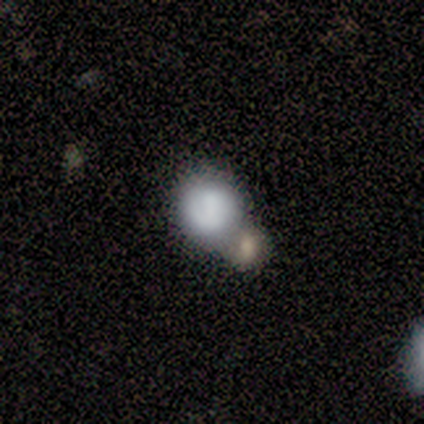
Smooth or featured?
  - smooth: 50% * (tied)
  - star or artifact: 50% * (tied)
  - featured or disk: 0%
How rounded?
  - round: 100% *
  - in between: 0%
  - cigar-shaped: 0%
Merging?
  - none: 50% * (tied)
  - merger: 50% * (tied)
  - minor disturbance: 0%
  - major disturbance: 0%